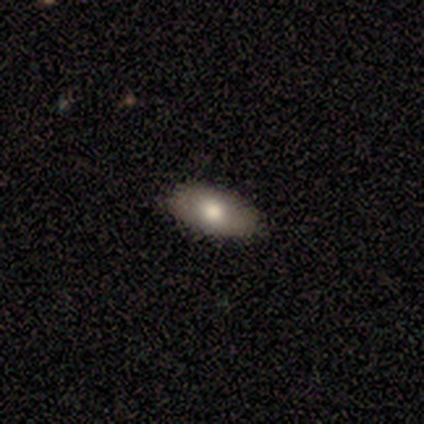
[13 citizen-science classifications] Smooth or featured? 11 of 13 (85%) said smooth. How rounded? 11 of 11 (100%) said in between. Merging? 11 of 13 (85%) said none.